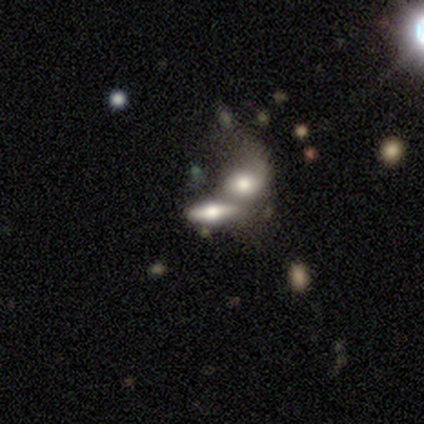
Volunteers were most divided on "edge-on disk": no: 60%, yes: 40%. More confident: smooth or featured — featured or disk (100%); bar — no (100%); spiral winding — loose (100%); spiral arm count — 1 (100%); merging — merger (100%); spiral arms — yes (67%); bulge size — dominant (67%).